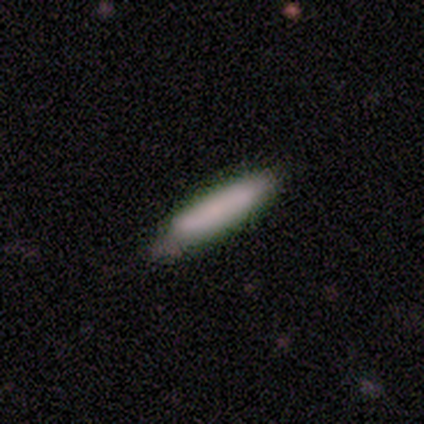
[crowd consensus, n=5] Morphology: type=smooth (100%); roundness=cigar-shaped (80%); merging=minor disturbance (80%).